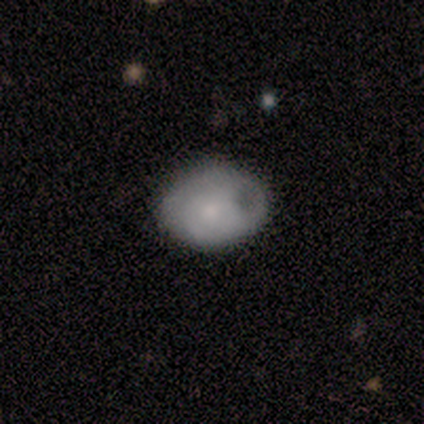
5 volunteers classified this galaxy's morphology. Volunteers were most divided on "how rounded" (2-way tie): round: 50%, in between: 50%, cigar-shaped: 0%; "merging" (2-way tie): none: 40%, minor disturbance: 40%, major disturbance: 20%, merger: 0%. More confident: smooth or featured — smooth (80%).